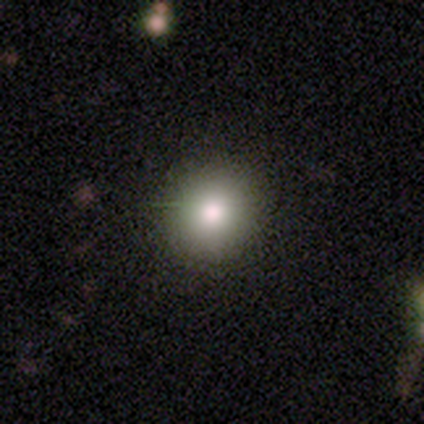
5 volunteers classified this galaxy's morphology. This appears to be a smooth galaxy with no disk features (100%) that is round (100%). Merging: none (100%).